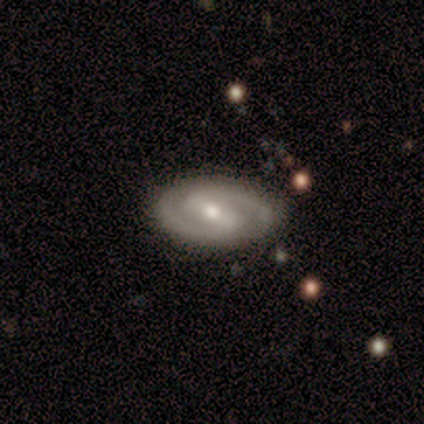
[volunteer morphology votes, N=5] Overall: featured or disk (80%). Edge-on disk: no (100%). Bar: strong (50%, tied with weak). Spiral arms: yes (75%). Spiral arm count: 2 (100%). Spiral winding: tight (33%, tied with medium and loose). Bulge size: small (75%). Merging: none (60%; minor disturbance 20%).